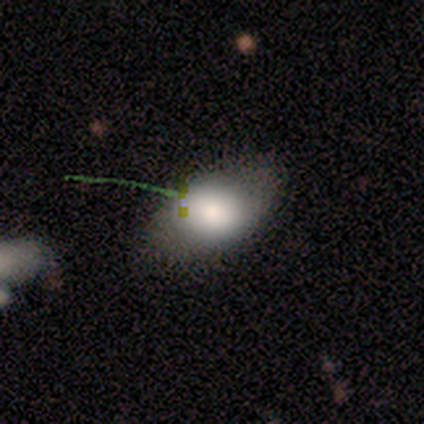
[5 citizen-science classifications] This is clearly a smooth galaxy (80%). How rounded: likely in between (75%). Merging: possibly none (50%, tied with minor disturbance).